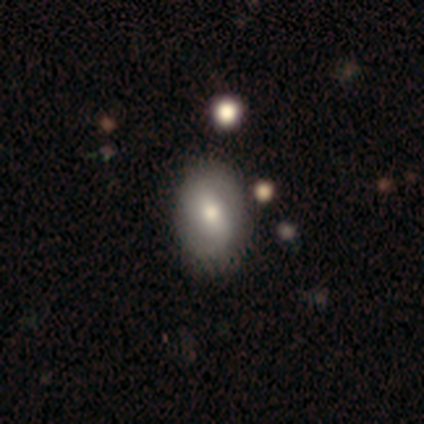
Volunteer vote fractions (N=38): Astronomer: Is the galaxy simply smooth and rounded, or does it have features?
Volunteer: featured or disk — 61%.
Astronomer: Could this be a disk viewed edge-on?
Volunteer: no — 96%.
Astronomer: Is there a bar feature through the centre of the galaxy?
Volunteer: weak — 64%.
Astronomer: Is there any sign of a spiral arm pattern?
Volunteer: yes — 82%.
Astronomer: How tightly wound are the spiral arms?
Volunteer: medium — 50% (runner-up: tight, 28%).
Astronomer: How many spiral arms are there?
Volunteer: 2 — 83%.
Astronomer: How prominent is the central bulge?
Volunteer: moderate — 73%.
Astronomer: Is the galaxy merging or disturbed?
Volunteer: none — 50%.